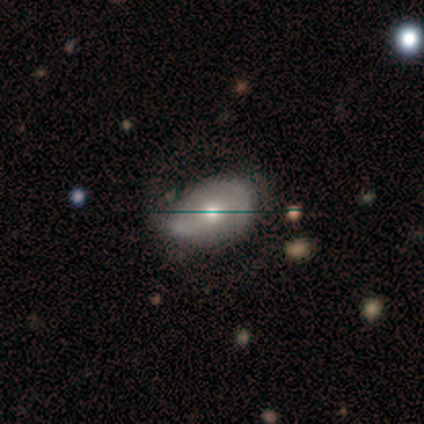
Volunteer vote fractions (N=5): This appears to be a featured or disk galaxy (60%) with a weak bar (67%), no spiral arms (67%) and a moderate central bulge (67%). Merging: minor disturbance (75%).